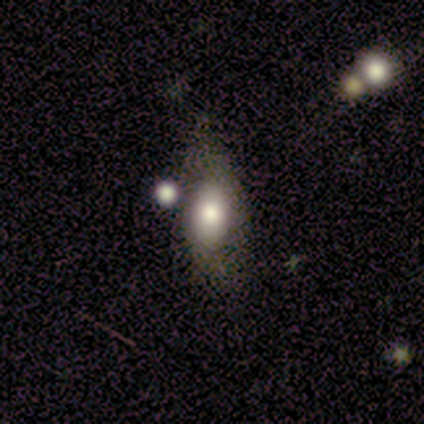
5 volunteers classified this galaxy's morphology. smooth-or-featured: smooth: 100% | featured or disk: 0% | star or artifact: 0%
  how-rounded: in between: 100% | round: 0% | cigar-shaped: 0%
  merging: minor disturbance: 40% | none: 20% | major disturbance: 20% | merger: 20%